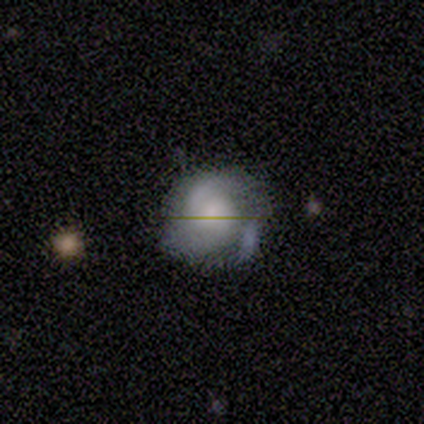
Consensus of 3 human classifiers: Morphology: type=smooth (67%); roundness=round (100%); merging=none (67%).